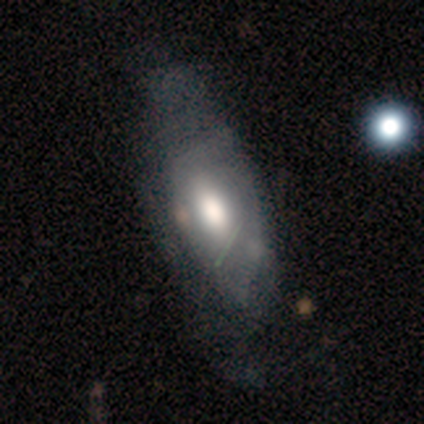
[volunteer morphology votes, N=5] smooth-or-featured: smooth: 60% | featured or disk: 40% | star or artifact: 0%
  how-rounded: in between: 100% | round: 0% | cigar-shaped: 0%
  merging: minor disturbance: 60% | none: 40% | major disturbance: 0% | merger: 0%